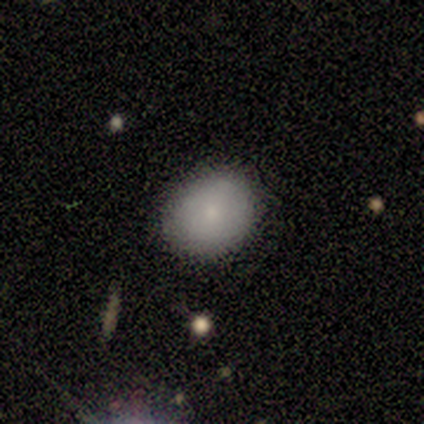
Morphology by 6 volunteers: smooth-or-featured: smooth: 67% | featured or disk: 17% | star or artifact: 17%
  how-rounded: round: 100% | in between: 0% | cigar-shaped: 0%
  merging: none: 80% | minor disturbance: 20% | major disturbance: 0% | merger: 0%